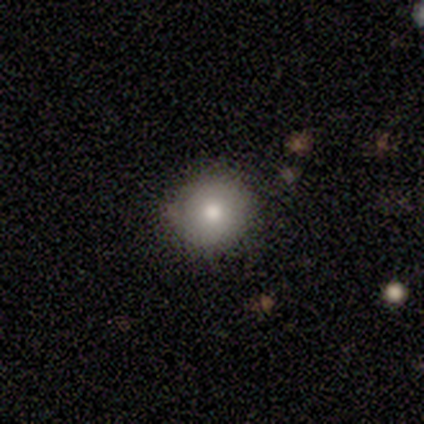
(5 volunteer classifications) Morphology: type=smooth (60%); roundness=round (100%); merging=none (100%).